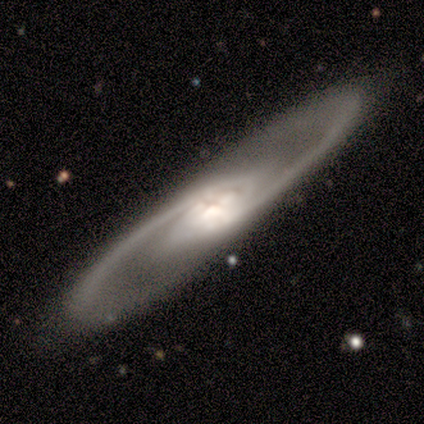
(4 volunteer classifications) Smooth or featured?
  - featured or disk: 100% *
  - smooth: 0%
  - star or artifact: 0%
Edge-on disk?
  - no: 75% *
  - yes: 25%
Bar?
  - strong: 33% * (tied)
  - weak: 33% * (tied)
  - no: 33% * (tied)
Spiral arms?
  - yes: 100% *
  - no: 0%
Spiral winding?
  - medium: 67% *
  - loose: 33%
  - tight: 0%
Spiral arm count?
  - 2: 100% *
  - 1: 0%
  - 3: 0%
  - 4: 0%
  - more than 4: 0%
  - can't tell: 0%
Bulge size?
  - moderate: 67% *
  - large: 33%
  - dominant: 0%
  - small: 0%
  - none: 0%
Merging?
  - none: 75% *
  - major disturbance: 25%
  - minor disturbance: 0%
  - merger: 0%